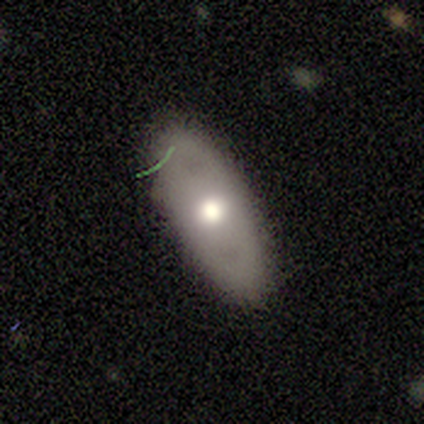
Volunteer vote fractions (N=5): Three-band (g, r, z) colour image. It shows a smooth galaxy with no disk features (100%) that is in between round and cigar-shaped (60%). Merging: none (100%).